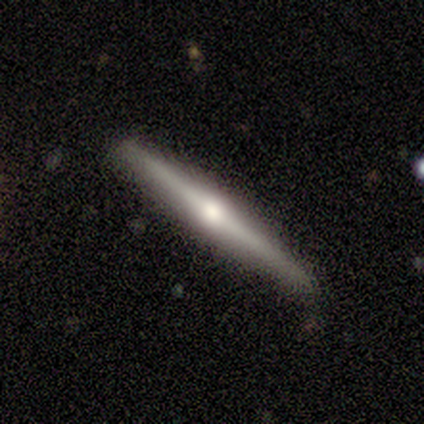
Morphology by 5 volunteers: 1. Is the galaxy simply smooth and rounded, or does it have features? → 60% featured or disk, 40% smooth, 0% star or artifact.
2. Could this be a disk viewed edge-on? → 100% yes, 0% no.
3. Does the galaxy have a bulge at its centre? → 100% rounded, 0% boxy, 0% none.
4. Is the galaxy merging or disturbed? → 100% none, 0% minor disturbance, 0% major disturbance, 0% merger.